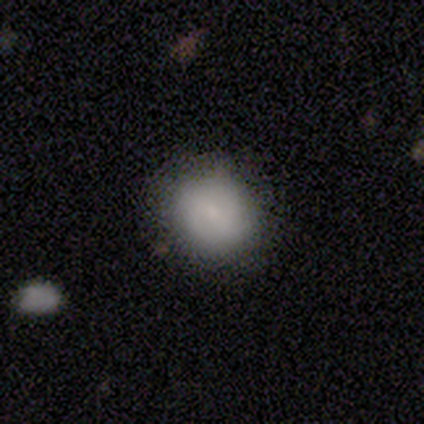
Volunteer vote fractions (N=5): smooth 60%, star or artifact 40%, featured or disk 0%. Down the decision tree: how rounded — round (100%); merging — none (100%).